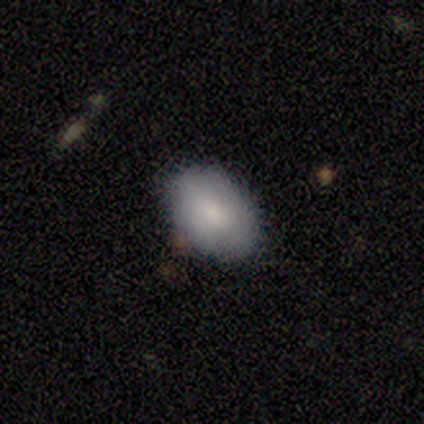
smooth_or_featured: smooth (p=0.86) [alt: featured or disk p=0.14]
how_rounded: in between (p=0.83) [alt: round p=0.17]
merging: none (p=0.86) [alt: major disturbance p=0.14]